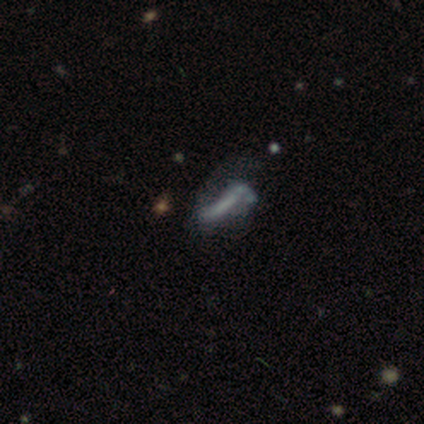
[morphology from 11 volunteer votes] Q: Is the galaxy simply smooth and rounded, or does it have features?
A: featured or disk — 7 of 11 (64%).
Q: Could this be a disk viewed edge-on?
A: no — 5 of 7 (71%).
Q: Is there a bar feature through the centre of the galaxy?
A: no — 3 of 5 (60%).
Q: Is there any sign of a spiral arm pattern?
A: no — 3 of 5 (60%).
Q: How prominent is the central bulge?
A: none — 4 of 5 (80%).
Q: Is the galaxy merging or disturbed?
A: major disturbance — 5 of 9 (56%).